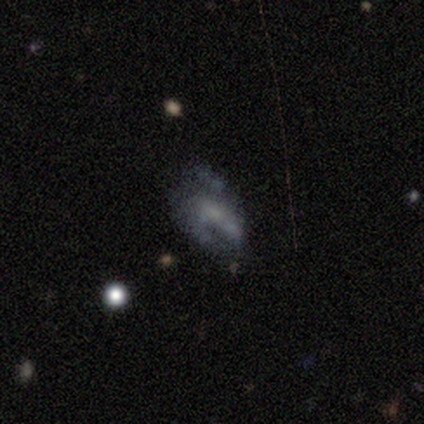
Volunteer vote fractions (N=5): Morphology: type=featured or disk (100%); edge-on=no (100%); bar=no (80%); spiral arms=no (80%); bulge=small (40%, tied with none); merging=minor disturbance (40%, tied with major disturbance).